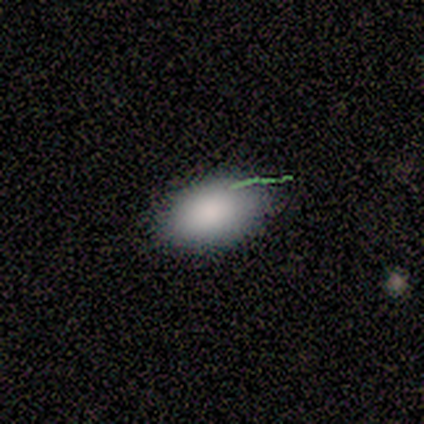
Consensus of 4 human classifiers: A smooth galaxy with no disk features (75%) that is in between round and cigar-shaped (67%).

Vote fractions:
- Smooth or featured? smooth: 75% / featured or disk: 25% / star or artifact: 0%
- How rounded? in between: 67% / round: 33% / cigar-shaped: 0%
- Merging? none: 100% / minor disturbance: 0% / major disturbance: 0% / merger: 0%